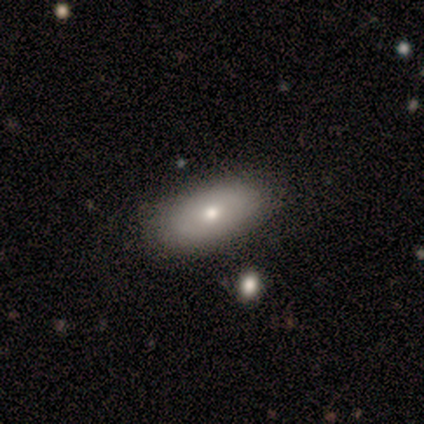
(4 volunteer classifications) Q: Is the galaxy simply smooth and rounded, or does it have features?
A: smooth — 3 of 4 (75%).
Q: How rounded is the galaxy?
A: in between — 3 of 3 (100%).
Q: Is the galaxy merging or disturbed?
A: none — 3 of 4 (75%).